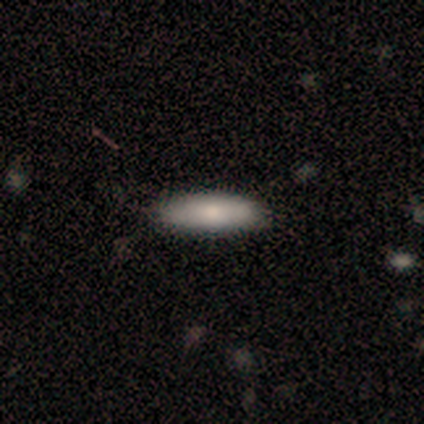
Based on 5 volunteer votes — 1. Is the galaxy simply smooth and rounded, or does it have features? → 80% smooth, 20% featured or disk, 0% star or artifact.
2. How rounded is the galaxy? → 75% in between, 25% cigar-shaped, 0% round.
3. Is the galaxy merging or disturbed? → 80% none, 20% minor disturbance, 0% major disturbance, 0% merger.